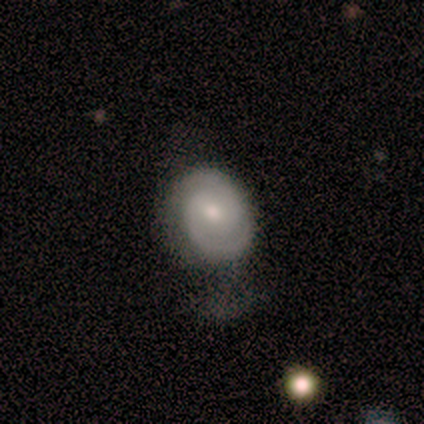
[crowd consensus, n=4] A featured or disk galaxy (75%) with a weak bar (100%), 2 (100%) tight (100%) spiral arms (100%) and a moderate central bulge (50%, tied with small).

Vote fractions:
- Smooth or featured? featured or disk: 75% / smooth: 25% / star or artifact: 0%
- Edge-on disk? no: 67% / yes: 33%
- Bar? weak: 100% / strong: 0% / no: 0%
- Spiral arms? yes: 100% / no: 0%
- Spiral winding? tight: 100% / medium: 0% / loose: 0%
- Spiral arm count? 2: 100% / 1: 0% / 3: 0% / 4: 0% / more than 4: 0% / can't tell: 0%
- Bulge size? moderate: 50% (tied) / small: 50% (tied) / dominant: 0% / large: 0% / none: 0%
- Merging? none: 50% (tied) / minor disturbance: 50% (tied) / major disturbance: 0% / merger: 0%